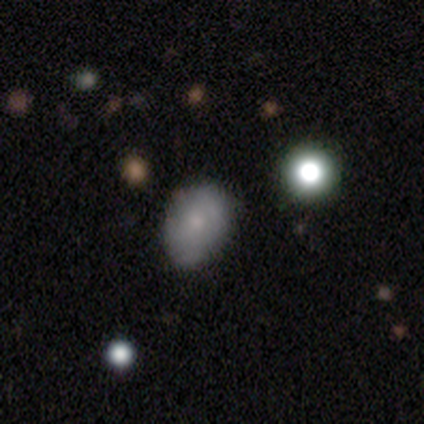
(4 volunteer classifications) Morphology: type=smooth (50%, tied with featured or disk); roundness=in between (100%); merging=none (75%).